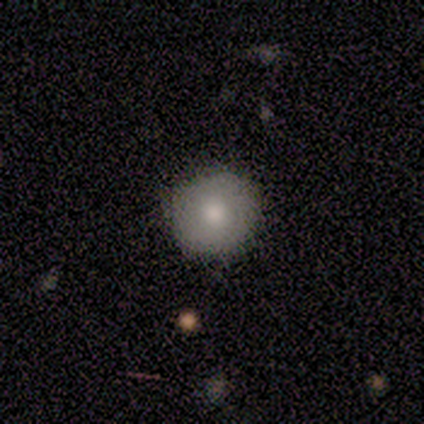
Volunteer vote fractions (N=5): Smooth or featured? smooth (80%)
How rounded? round (100%)
Merging? none (80%)